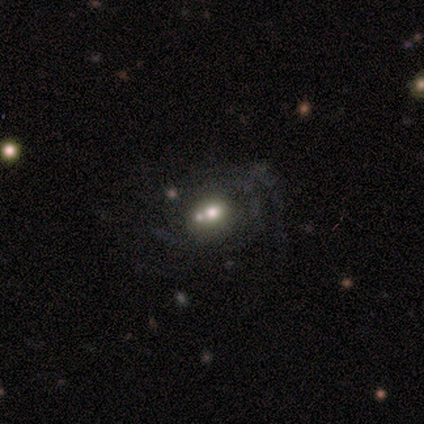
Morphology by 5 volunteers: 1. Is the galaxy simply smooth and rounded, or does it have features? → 80% featured or disk, 20% smooth, 0% star or artifact.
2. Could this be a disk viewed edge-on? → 100% no, 0% yes.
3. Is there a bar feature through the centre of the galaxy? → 75% no, 25% strong, 0% weak.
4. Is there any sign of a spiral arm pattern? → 75% yes, 25% no.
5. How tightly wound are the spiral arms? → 67% tight, 33% loose, 0% medium.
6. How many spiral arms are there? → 100% can't tell, 0% 1, 0% 2, 0% 3, 0% 4, 0% more than 4.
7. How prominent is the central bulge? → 50% dominant (tied), 50% moderate (tied), 0% large, 0% small, 0% none.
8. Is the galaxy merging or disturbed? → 40% none (tied), 40% minor disturbance (tied), 20% merger, 0% major disturbance.